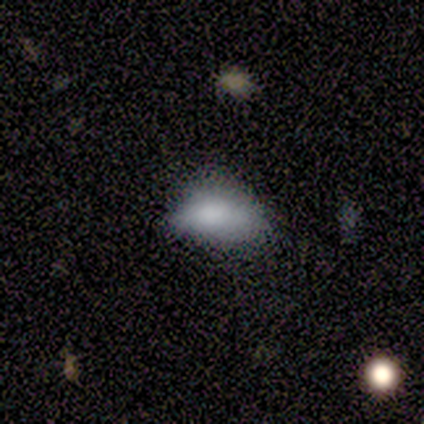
Smooth or featured? smooth (60%)
How rounded? in between (100%)
Merging? none (50%)